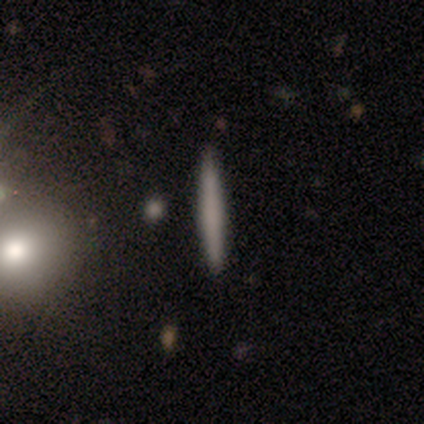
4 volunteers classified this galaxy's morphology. Consensus on every question: smooth or featured — smooth (100%); how rounded — cigar-shaped (100%); merging — none (100%).